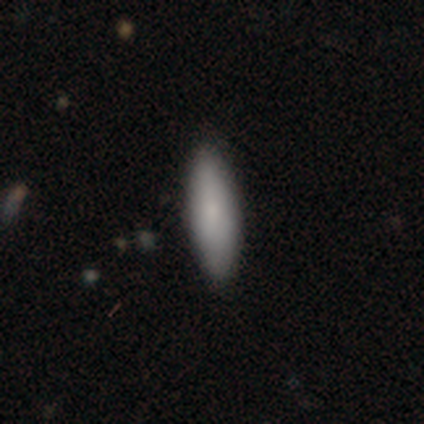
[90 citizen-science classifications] smooth 93%, featured or disk 4%, star or artifact 2%. Down the decision tree: how rounded — cigar-shaped (57%); merging — none (90%).